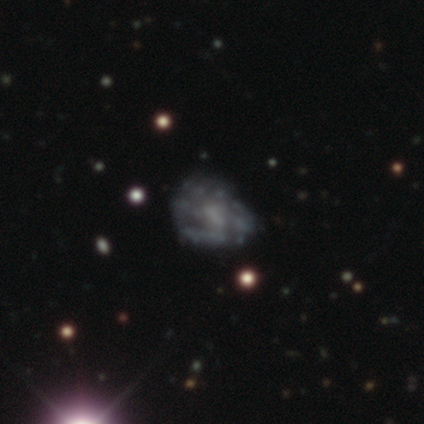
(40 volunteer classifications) Morphology: type=featured or disk (65%); edge-on=no (100%); bar=no (73%); spiral arms=no (62%); bulge=none (42%); merging=none (48%).